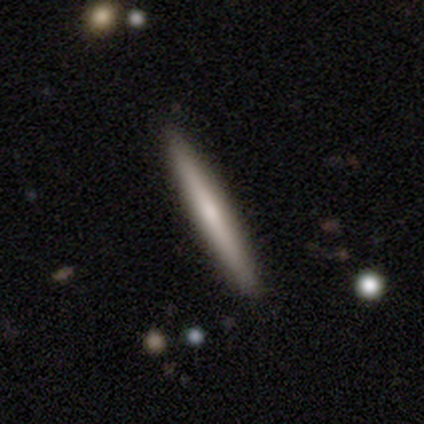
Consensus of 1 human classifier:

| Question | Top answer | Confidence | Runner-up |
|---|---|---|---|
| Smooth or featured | featured or disk | 100% | — |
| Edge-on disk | yes | 100% | — |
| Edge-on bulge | rounded | 100% | — |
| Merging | none | 100% | — |